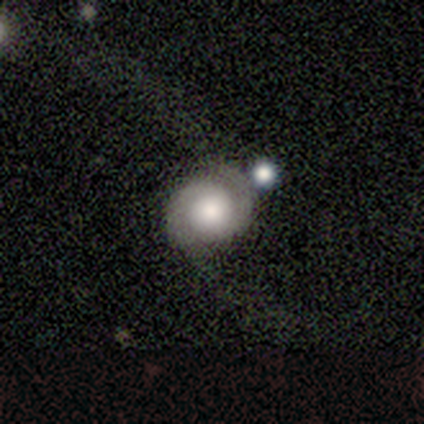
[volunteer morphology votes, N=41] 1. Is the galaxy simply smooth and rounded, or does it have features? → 63% featured or disk, 24% smooth, 12% star or artifact.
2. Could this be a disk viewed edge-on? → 100% no, 0% yes.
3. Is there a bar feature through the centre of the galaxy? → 85% no, 15% weak, 0% strong.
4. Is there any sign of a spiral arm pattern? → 96% yes, 4% no.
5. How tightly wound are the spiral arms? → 40% medium, 32% tight, 28% loose.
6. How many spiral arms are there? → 96% 2, 4% can't tell, 0% 1, 0% 3, 0% 4, 0% more than 4.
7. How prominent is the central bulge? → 42% moderate, 38% large, 12% small, 8% dominant, 0% none.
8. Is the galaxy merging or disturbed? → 53% none, 25% major disturbance, 19% minor disturbance, 3% merger.